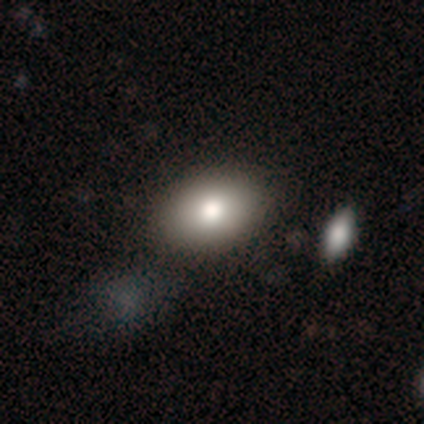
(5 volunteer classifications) A smooth galaxy with no disk features (60%) that is in between round and cigar-shaped (100%). Merging: none (100%).